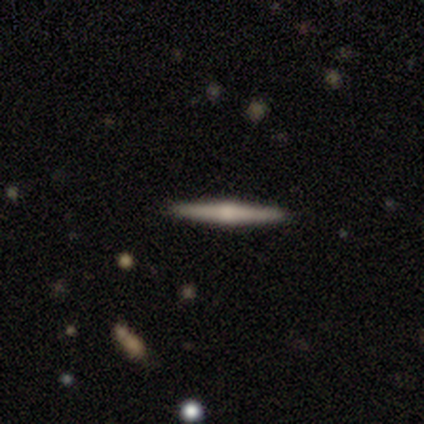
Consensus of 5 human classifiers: smooth-or-featured: featured or disk: 60% | smooth: 40% | star or artifact: 0%
  disk-edge-on: yes: 100% | no: 0%
    edge-on-bulge: rounded: 100% | boxy: 0% | none: 0%
  merging: none: 80% | minor disturbance: 20% | major disturbance: 0% | merger: 0%